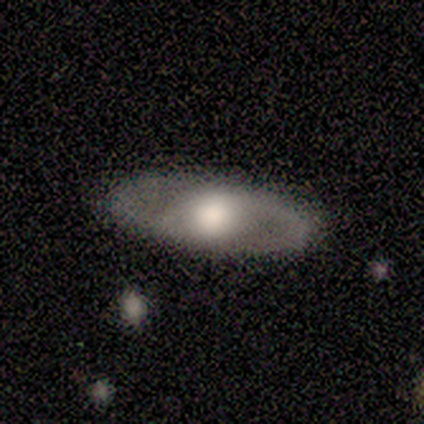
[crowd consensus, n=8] A featured or disk galaxy (88%) with no bar (83%), 2 (75%) medium (50%, tied with loose) spiral arms (67%) and a moderate central bulge (67%). Merging: none (100%).